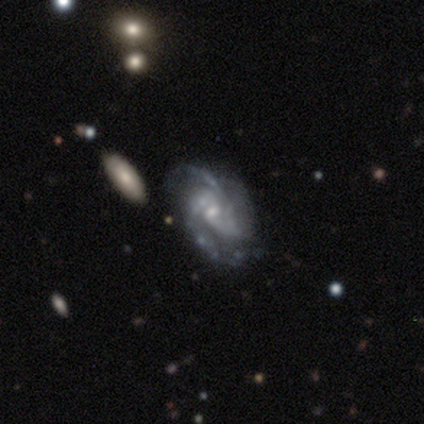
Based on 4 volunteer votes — Smooth or featured? featured or disk (100%)
Edge-on disk? no (100%)
Bar? weak (50%, tied with no)
Spiral arms? yes (75%)
Spiral winding? medium (67%)
Spiral arm count? 2 (67%)
Bulge size? small (75%)
Merging? none (50%, tied with minor disturbance)